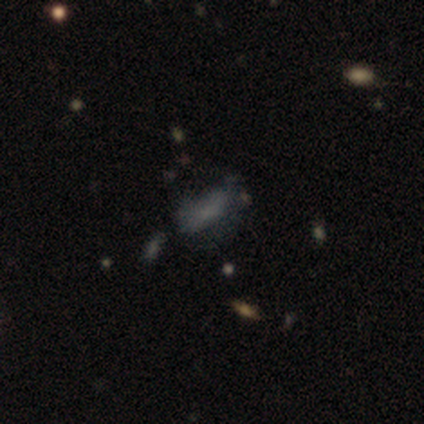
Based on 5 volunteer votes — This appears to be a smooth galaxy with no disk features (60%) that is in between round and cigar-shaped (100%). Merging: minor disturbance (67%).